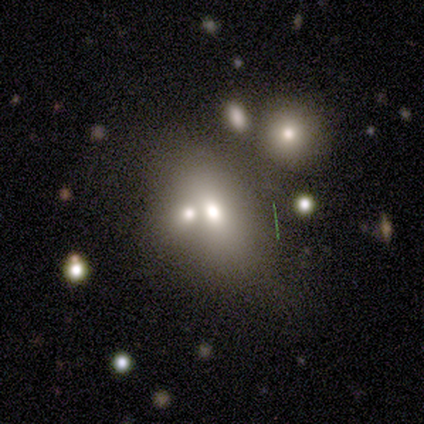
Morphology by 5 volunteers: type=featured or disk (60%); edge-on=no (100%); bar=no (100%); spiral arms=no (100%); bulge=moderate (100%); merging=merger (60%).